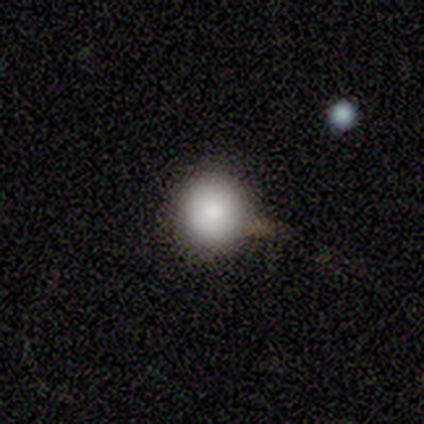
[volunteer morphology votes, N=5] Smooth or featured?
  - smooth: 100% *
  - featured or disk: 0%
  - star or artifact: 0%
How rounded?
  - round: 100% *
  - in between: 0%
  - cigar-shaped: 0%
Merging?
  - none: 60% *
  - minor disturbance: 40%
  - major disturbance: 0%
  - merger: 0%